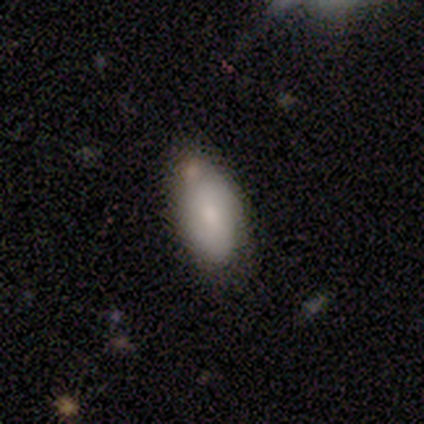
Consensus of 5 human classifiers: Q: Smooth or featured?
A: smooth (60%); runner-up: featured or disk (20%)
Q: How rounded?
A: in between (100%)
Q: Merging?
A: minor disturbance (50%); runner-up: none (25%)